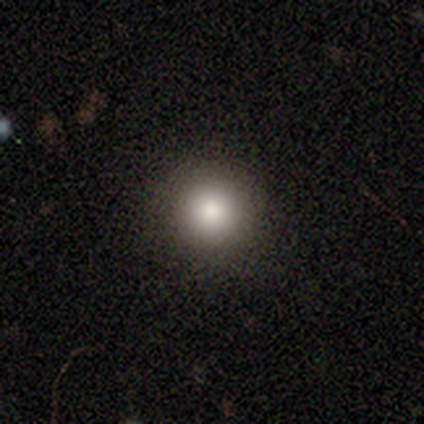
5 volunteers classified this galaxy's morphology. Smooth or featured?
  - smooth: 60% *
  - featured or disk: 40%
  - star or artifact: 0%
How rounded?
  - round: 100% *
  - in between: 0%
  - cigar-shaped: 0%
Merging?
  - none: 80% *
  - merger: 20%
  - minor disturbance: 0%
  - major disturbance: 0%